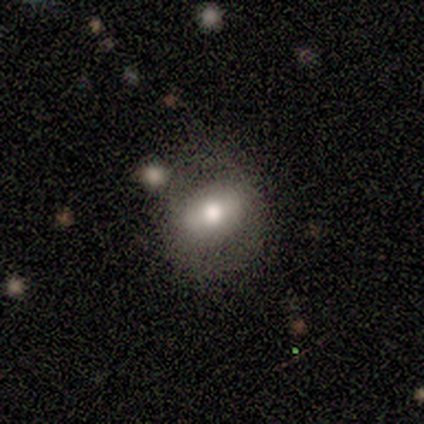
Q: Smooth or featured?
A: smooth (57%); runner-up: featured or disk (43%)
Q: How rounded?
A: in between (100%)
Q: Merging?
A: none (57%); runner-up: major disturbance (29%)